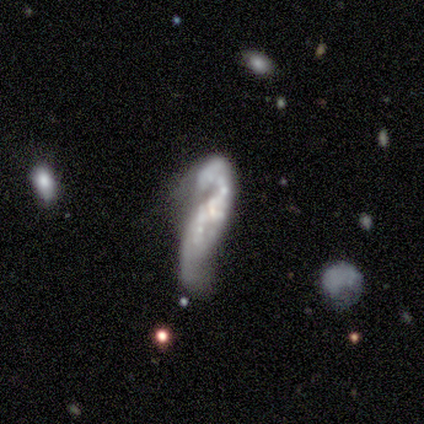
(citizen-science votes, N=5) Smooth or featured?
  - featured or disk: 80% *
  - smooth: 20%
  - star or artifact: 0%
Edge-on disk?
  - no: 100% *
  - yes: 0%
Bar?
  - no: 100% *
  - strong: 0%
  - weak: 0%
Spiral arms?
  - yes: 75% *
  - no: 25%
Spiral winding?
  - loose: 67% *
  - tight: 33%
  - medium: 0%
Spiral arm count?
  - 2: 67% *
  - can't tell: 33%
  - 1: 0%
  - 3: 0%
  - 4: 0%
  - more than 4: 0%
Bulge size?
  - none: 75% *
  - small: 25%
  - dominant: 0%
  - large: 0%
  - moderate: 0%
Merging?
  - minor disturbance: 60% *
  - major disturbance: 20%
  - merger: 20%
  - none: 0%